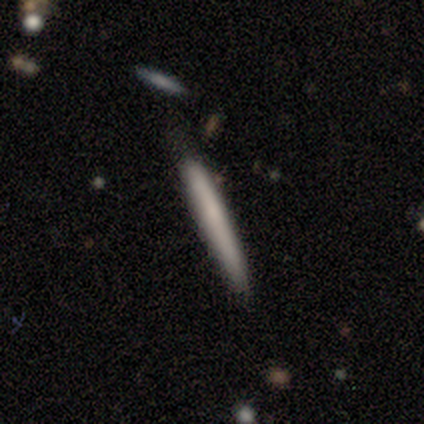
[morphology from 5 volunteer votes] Overall: smooth (80%). How rounded: cigar-shaped (100%). Merging: none (60%; minor disturbance 20%).